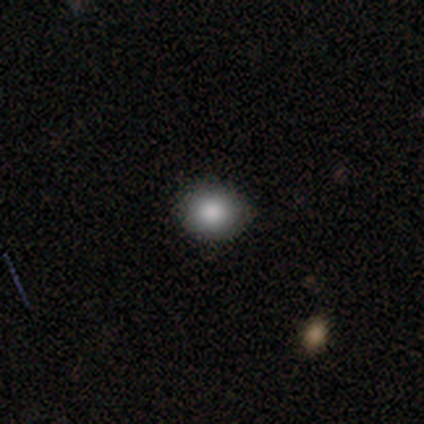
A smooth galaxy with no disk features (100%) that is round (50%, tied with in between). Merging: none (100%).